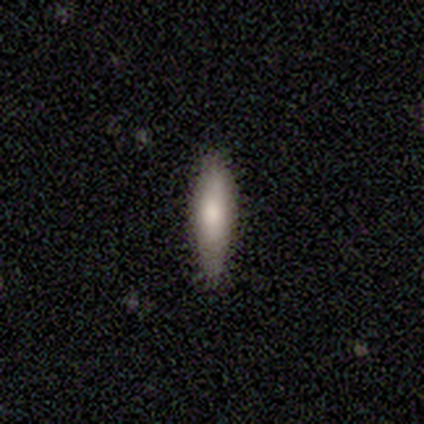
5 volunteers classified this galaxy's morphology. Smooth or featured? 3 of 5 (60%) said smooth. How rounded? 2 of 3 (67%) said cigar-shaped. Merging? 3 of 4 (75%) said none.